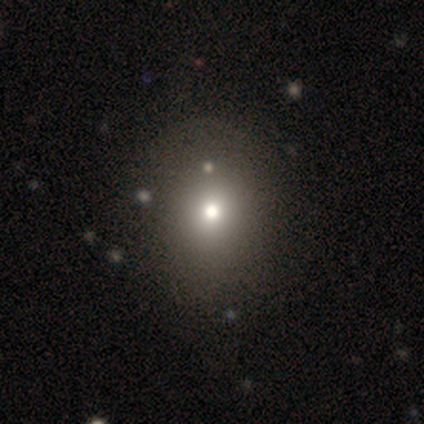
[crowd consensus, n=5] Q: Smooth or featured?
A: smooth (60%); runner-up: featured or disk (20%)
Q: How rounded?
A: round (67%); runner-up: cigar-shaped (33%)
Q: Merging?
A: none (50%); runner-up: minor disturbance (25%)